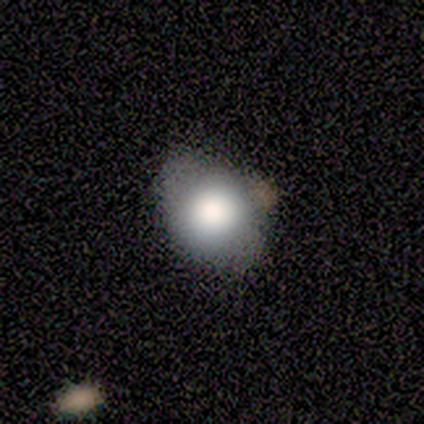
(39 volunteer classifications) Smooth or featured? smooth (67%)
How rounded? in between (58%)
Merging? none (61%)